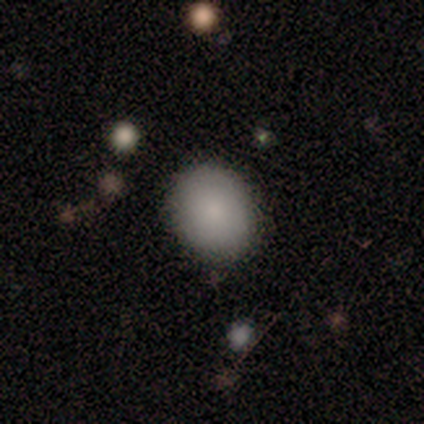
This is clearly a smooth galaxy (80%). How rounded: possibly round (50%, tied with in between). Merging: clearly none (100%).